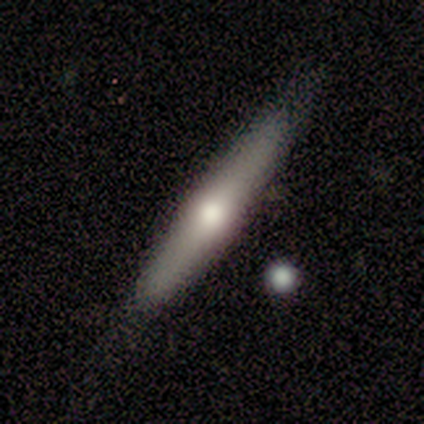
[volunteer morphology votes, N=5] A featured or disk galaxy (60%) viewed edge-on (100%) with a rounded central bulge (100%). Merging: none (100%).